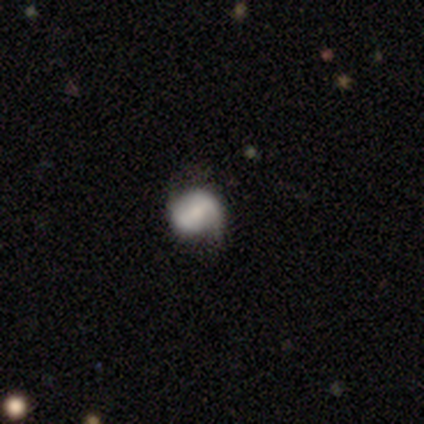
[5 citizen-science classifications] A featured or disk galaxy (80%) with no bar (50%), 2 (100%) tight (50%, tied with loose) spiral arms (50%, tied with no) and a moderate central bulge (50%, tied with small). Merging: none (60%).